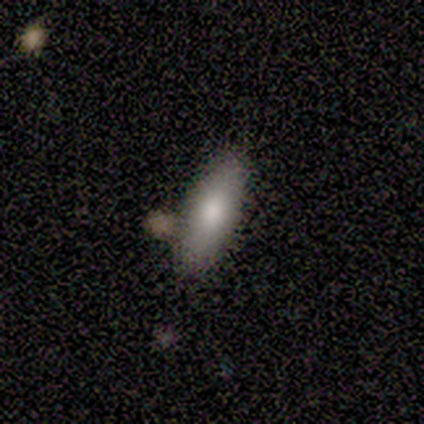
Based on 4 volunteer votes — This is likely a smooth galaxy (75%). How rounded: likely cigar-shaped (67%). Merging: clearly none (100%).